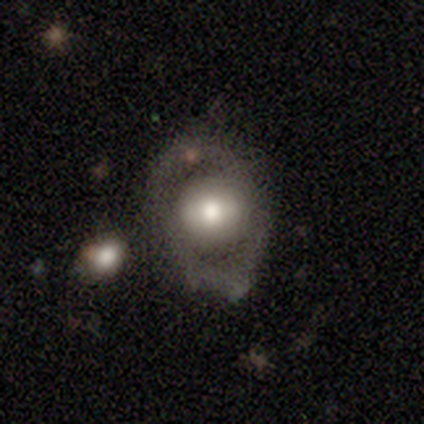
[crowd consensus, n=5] Smooth or featured? 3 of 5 (60%) said featured or disk. Edge-on disk? 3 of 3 (100%) said no. Bar? 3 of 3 (100%) said no. Spiral arms? 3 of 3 (100%) said no. Bulge size? 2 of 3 (67%) said moderate. Merging? 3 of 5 (60%) said none.